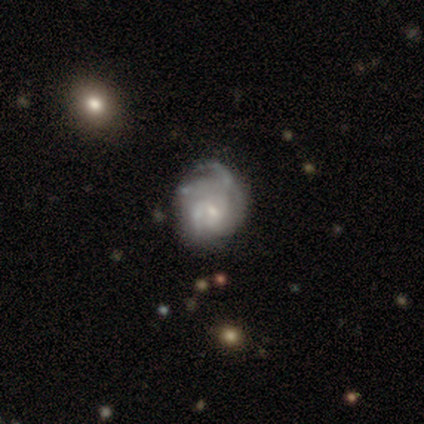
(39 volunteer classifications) A featured or disk galaxy (72%) with no bar (64%), tight (44%) spiral arms (89%) and a small central bulge (39%).

Vote fractions:
- Smooth or featured? featured or disk: 72% / smooth: 21% / star or artifact: 8%
- Edge-on disk? no: 100% / yes: 0%
- Bar? no: 64% / weak: 29% / strong: 7%
- Spiral arms? yes: 89% / no: 11%
- Spiral winding? tight: 44% / loose: 36% / medium: 20%
- Spiral arm count? can't tell: 48% / 3: 32% / 2: 12% / 1: 4% / 4: 4% / more than 4: 0%
- Bulge size? small: 39% / moderate: 36% / none: 25% / dominant: 0% / large: 0%
- Merging? none: 47% / minor disturbance: 28% / major disturbance: 22% / merger: 3%